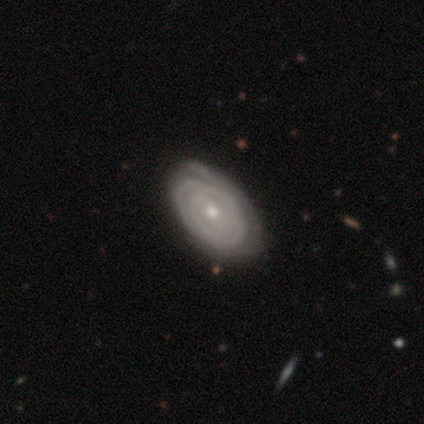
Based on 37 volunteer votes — Q: Smooth or featured?
A: featured or disk (92%); runner-up: smooth (5%)
Q: Edge-on disk?
A: no (100%)
Q: Bar?
A: no (59%); runner-up: weak (32%)
Q: Spiral arms?
A: yes (82%); runner-up: no (18%)
Q: Spiral winding?
A: tight (96%); runner-up: loose (4%)
Q: Spiral arm count?
A: can't tell (43%); runner-up: 2 (29%)
Q: Bulge size?
A: small (53%); runner-up: moderate (44%)
Q: Merging?
A: none (58%); runner-up: minor disturbance (11%)